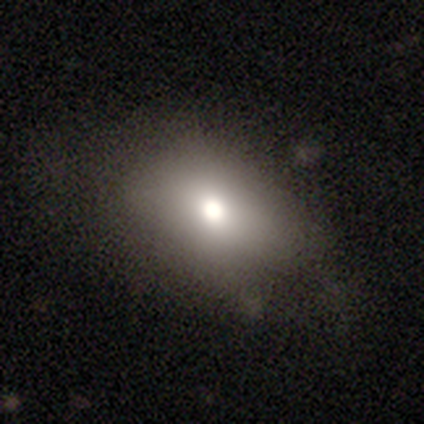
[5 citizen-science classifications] A smooth galaxy with no disk features (60%) that is in between round and cigar-shaped (100%).

Vote fractions:
- Smooth or featured? smooth: 60% / featured or disk: 40% / star or artifact: 0%
- How rounded? in between: 100% / round: 0% / cigar-shaped: 0%
- Merging? none: 80% / minor disturbance: 20% / major disturbance: 0% / merger: 0%